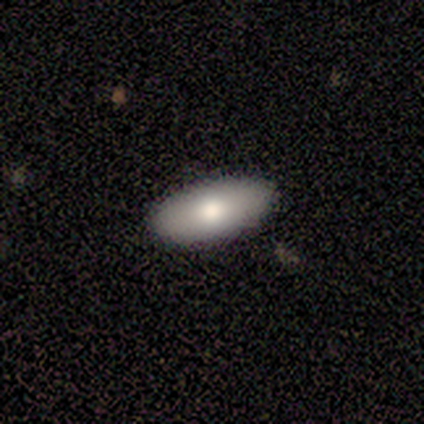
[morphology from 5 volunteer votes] Overall: smooth (100%). How rounded: in between (100%). Merging: none (100%).